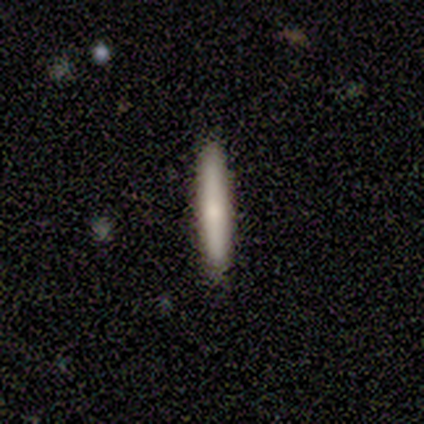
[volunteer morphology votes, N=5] Overall: featured or disk (60%; smooth 40%). Edge-on disk: yes (100%). Edge-on bulge: boxy (33%, tied with none and rounded). Merging: none (100%).